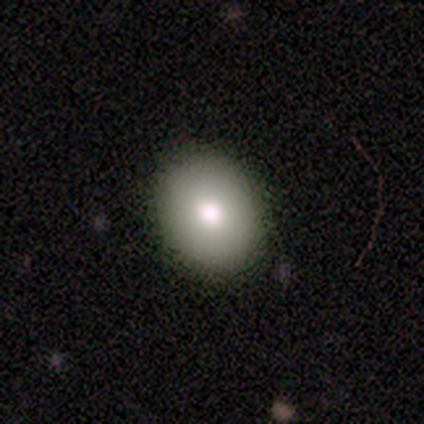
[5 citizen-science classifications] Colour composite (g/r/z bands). It shows a smooth galaxy with no disk features (80%) that is in between round and cigar-shaped (75%). Merging: none (80%).